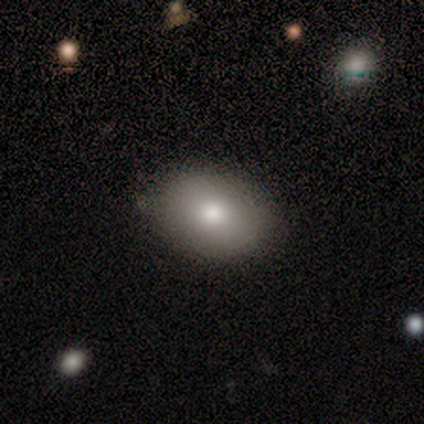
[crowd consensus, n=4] Q: Smooth or featured?
A: smooth (50%); tied with: featured or disk (50%)
Q: How rounded?
A: round (50%); tied with: in between (50%)
Q: Merging?
A: none (75%); runner-up: merger (25%)